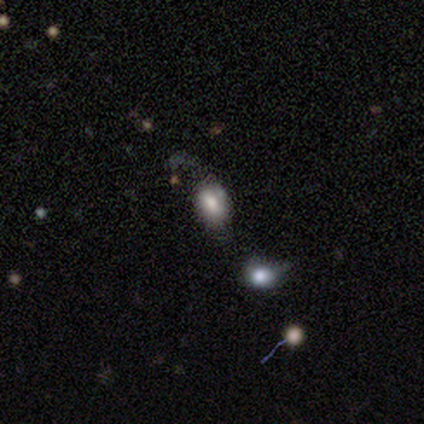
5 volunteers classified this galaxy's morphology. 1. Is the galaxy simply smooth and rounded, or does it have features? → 60% smooth, 40% star or artifact, 0% featured or disk.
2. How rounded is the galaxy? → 67% in between, 33% round, 0% cigar-shaped.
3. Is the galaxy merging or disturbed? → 67% major disturbance, 33% none, 0% minor disturbance, 0% merger.